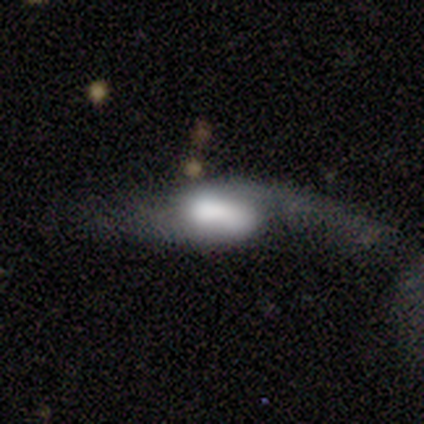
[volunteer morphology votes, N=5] smooth-or-featured: smooth: 40% (tied) | star or artifact: 40% (tied) | featured or disk: 20%
  how-rounded: in between: 100% | round: 0% | cigar-shaped: 0%
  merging: major disturbance: 67% | minor disturbance: 33% | none: 0% | merger: 0%